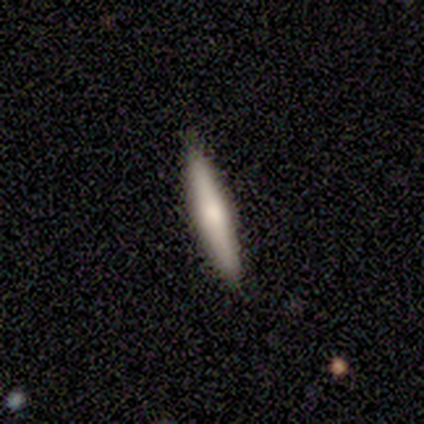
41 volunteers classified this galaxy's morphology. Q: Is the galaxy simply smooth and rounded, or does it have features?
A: smooth — 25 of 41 (61%).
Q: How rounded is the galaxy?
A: cigar-shaped — 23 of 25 (92%).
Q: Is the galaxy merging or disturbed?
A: none — 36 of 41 (88%).